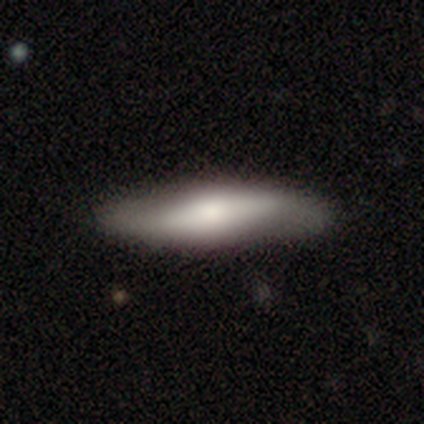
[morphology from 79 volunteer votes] type=smooth (59%); roundness=cigar-shaped (79%); merging=none (35%).